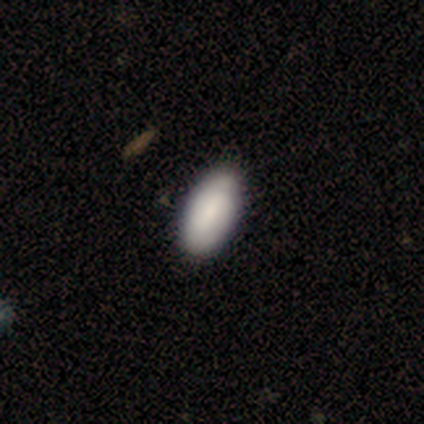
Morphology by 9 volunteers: smooth-or-featured: smooth: 100% | featured or disk: 0% | star or artifact: 0%
  how-rounded: in between: 100% | round: 0% | cigar-shaped: 0%
  merging: none: 89% | major disturbance: 11% | minor disturbance: 0% | merger: 0%